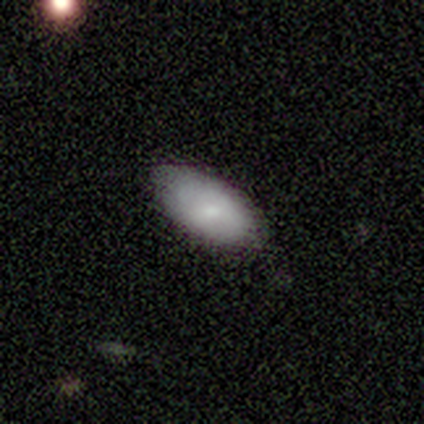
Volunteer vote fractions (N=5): This appears to be a smooth galaxy with no disk features (100%) that is in between round and cigar-shaped (100%). Merging: none (100%).